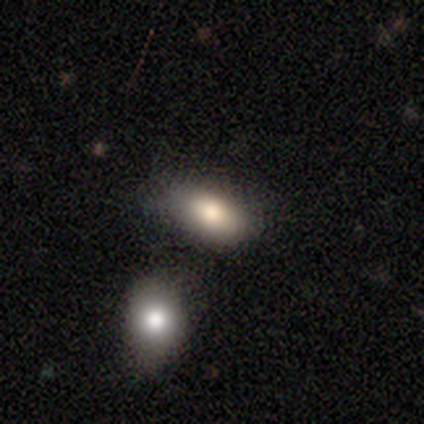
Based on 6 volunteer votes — Smooth or featured: smooth — 50% (featured or disk — 33%)
How rounded: in between — 100%
Merging: none — 60% (minor disturbance — 20%)